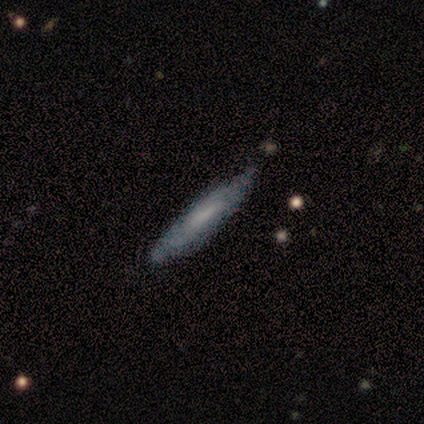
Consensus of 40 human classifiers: smooth_or_featured: smooth (p=0.50) [tied with: featured or disk p=0.50]
how_rounded: cigar-shaped (p=0.80) [alt: in between p=0.15]
merging: none (p=0.53) [alt: minor disturbance p=0.15]